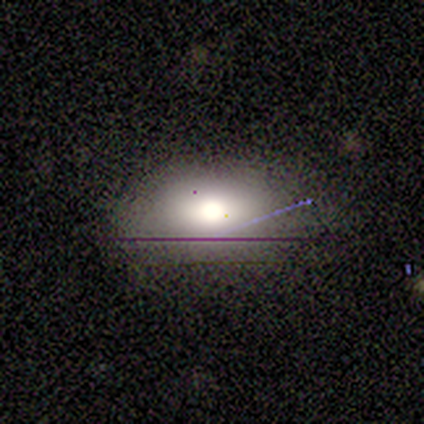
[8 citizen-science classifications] This is clearly a smooth galaxy (88%). How rounded: clearly in between (100%). Merging: likely none (62%).